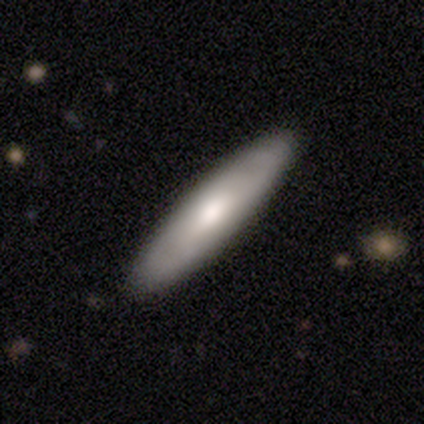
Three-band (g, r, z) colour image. It shows a smooth galaxy with no disk features (80%) that is cigar-shaped (100%). Merging: none (100%).